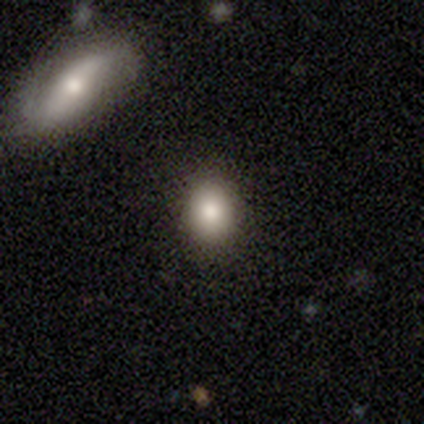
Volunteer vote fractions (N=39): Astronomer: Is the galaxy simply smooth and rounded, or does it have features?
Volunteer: smooth — 79%.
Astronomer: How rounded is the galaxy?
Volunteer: in between — 61% (runner-up: round, 39%).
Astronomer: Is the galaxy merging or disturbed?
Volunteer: none — 86%.